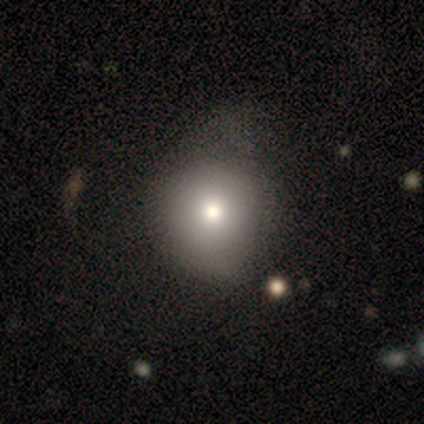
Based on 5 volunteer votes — Morphology: type=smooth (100%); roundness=round (80%); merging=none (40%, tied with minor disturbance).